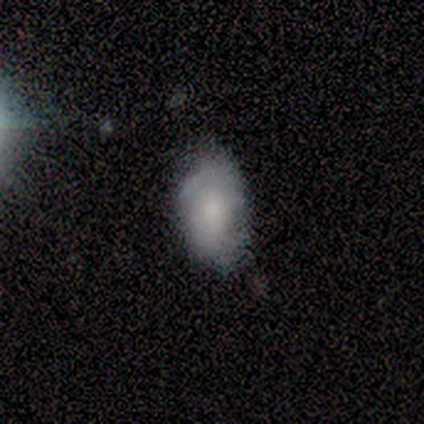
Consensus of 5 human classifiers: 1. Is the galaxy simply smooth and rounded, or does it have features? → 60% smooth, 20% featured or disk, 20% star or artifact.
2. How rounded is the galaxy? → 100% in between, 0% round, 0% cigar-shaped.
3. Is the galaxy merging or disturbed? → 50% none, 25% minor disturbance, 25% major disturbance, 0% merger.